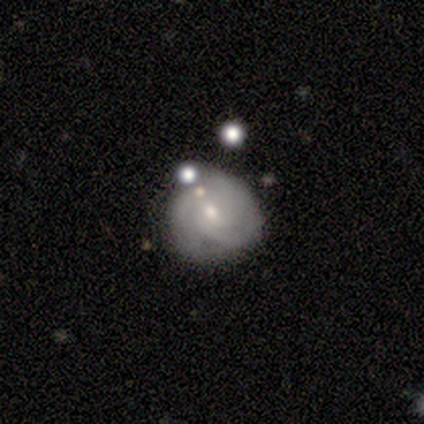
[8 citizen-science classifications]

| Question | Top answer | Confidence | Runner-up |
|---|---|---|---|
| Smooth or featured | featured or disk | 62% | smooth (38%) |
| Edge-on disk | no | 100% | — |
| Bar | no | 80% | weak (20%) |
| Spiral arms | yes | 80% | no (20%) |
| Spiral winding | tight | 50% | tied: medium (50%) |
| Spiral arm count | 3 | 75% | 2 (25%) |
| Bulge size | small | 60% | moderate (40%) |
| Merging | none | 62% | minor disturbance (25%) |